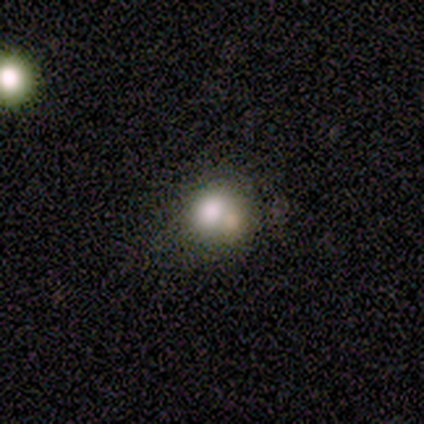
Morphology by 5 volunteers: Overall: smooth (40%, tied with featured or disk). How rounded: round (100%). Merging: none (50%; minor disturbance 25%).